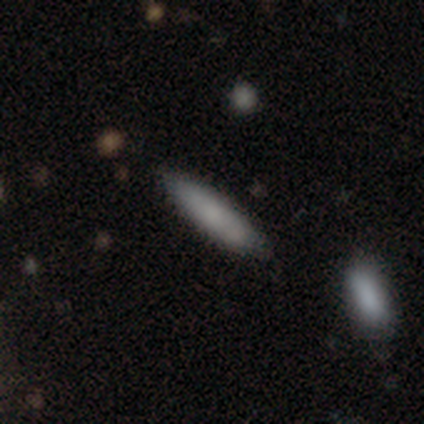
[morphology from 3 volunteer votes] This appears to be a smooth galaxy with no disk features (33%, tied with featured or disk and star or artifact) that is cigar-shaped (100%). Merging: none (100%).